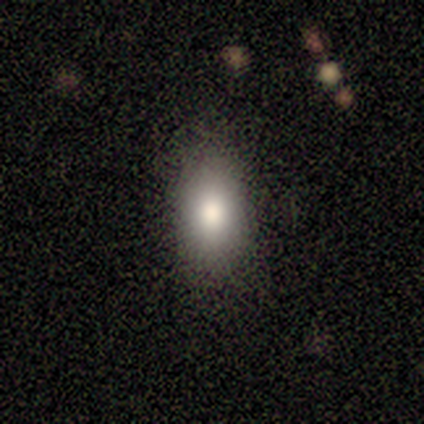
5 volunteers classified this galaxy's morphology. Q: Smooth or featured?
A: smooth (80%); runner-up: star or artifact (20%)
Q: How rounded?
A: in between (75%); runner-up: round (25%)
Q: Merging?
A: none (100%)